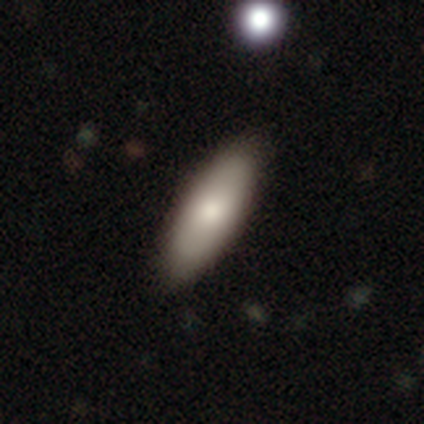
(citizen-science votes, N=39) Smooth or featured: smooth — 79% (featured or disk — 15%)
How rounded: in between — 81% (cigar-shaped — 19%)
Merging: none — 84% (minor disturbance — 16%)